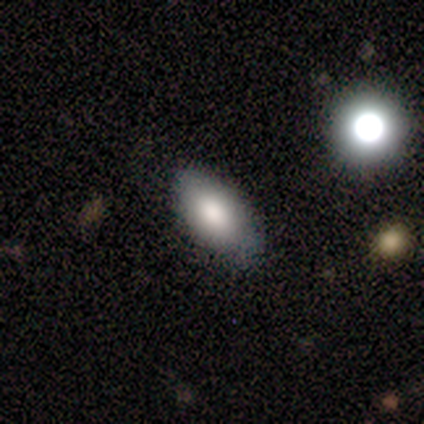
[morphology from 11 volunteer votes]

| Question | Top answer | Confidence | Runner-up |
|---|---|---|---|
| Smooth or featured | smooth | 100% | — |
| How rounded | in between | 82% | round (9%) |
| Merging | none | 100% | — |